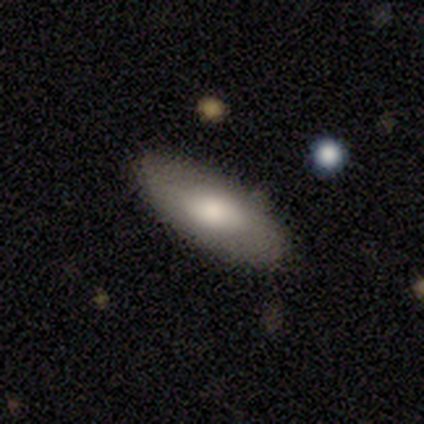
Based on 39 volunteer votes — smooth_or_featured: smooth (p=0.69) [alt: featured or disk p=0.28]
how_rounded: in between (p=0.89) [alt: cigar-shaped p=0.11]
merging: none (p=0.87) [alt: minor disturbance p=0.11]